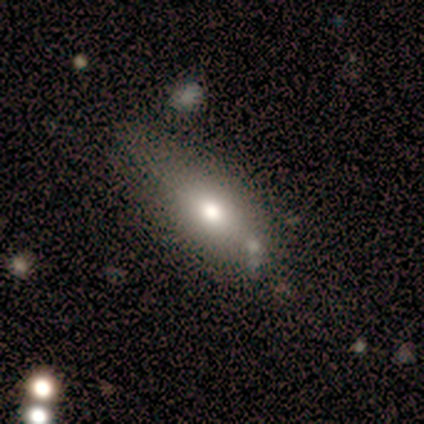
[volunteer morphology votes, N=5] type=smooth (80%); roundness=in between (100%); merging=none (75%).